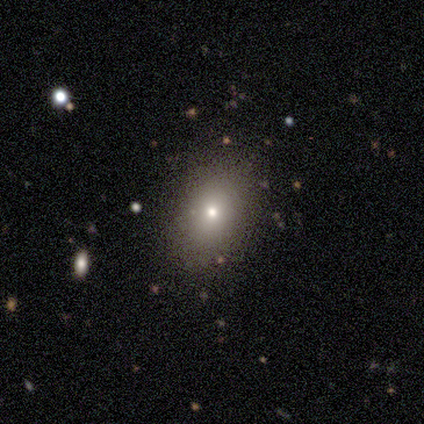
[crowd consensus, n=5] A smooth galaxy with no disk features (60%) that is in between round and cigar-shaped (67%).

Vote fractions:
- Smooth or featured? smooth: 60% / featured or disk: 40% / star or artifact: 0%
- How rounded? in between: 67% / round: 33% / cigar-shaped: 0%
- Merging? none: 60% / minor disturbance: 40% / major disturbance: 0% / merger: 0%